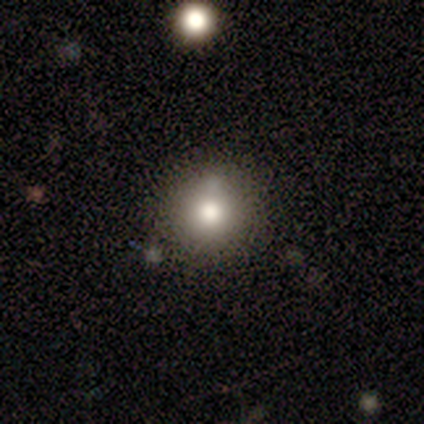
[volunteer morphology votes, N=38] Smooth or featured? 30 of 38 (79%) said smooth. How rounded? 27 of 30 (90%) said round. Merging? 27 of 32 (84%) said none.